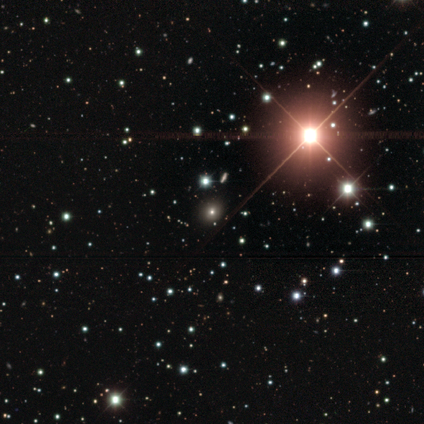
Smooth or featured? 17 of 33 (52%) said star or artifact.